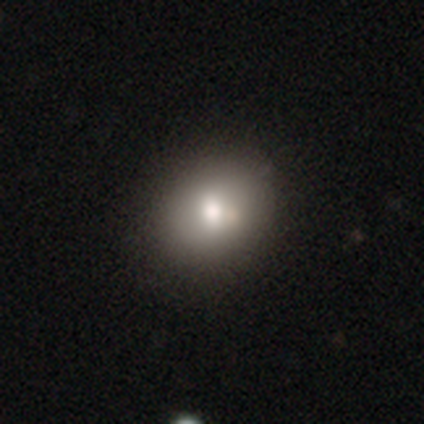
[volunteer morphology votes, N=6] A smooth galaxy with no disk features (83%) that is in between round and cigar-shaped (80%).

Vote fractions:
- Smooth or featured? smooth: 83% / featured or disk: 17% / star or artifact: 0%
- How rounded? in between: 80% / round: 20% / cigar-shaped: 0%
- Merging? none: 83% / minor disturbance: 17% / major disturbance: 0% / merger: 0%